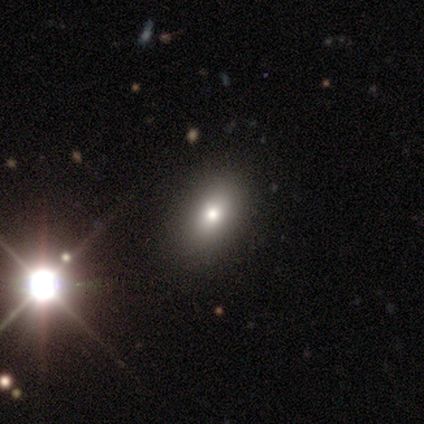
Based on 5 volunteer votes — Smooth or featured? smooth (100%)
How rounded? in between (80%)
Merging? none (60%)